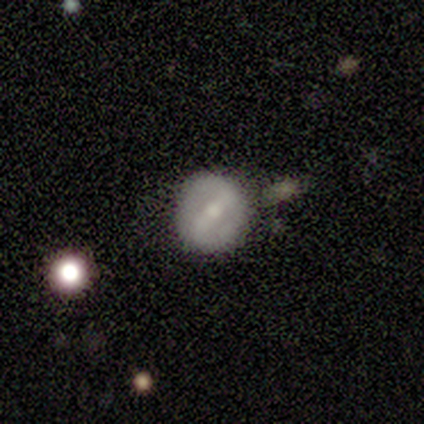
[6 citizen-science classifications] featured or disk 83%, smooth 17%, star or artifact 0%. Down the decision tree: edge-on disk — no (100%); bar — weak (60%); spiral arms — yes (60%); spiral arm count — 2 (100%); spiral winding — loose (100%); bulge size — small (100%); merging — none (50%).